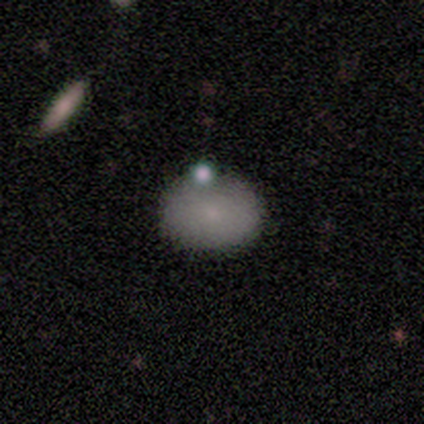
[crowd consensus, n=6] Q: Smooth or featured?
A: smooth (100%)
Q: How rounded?
A: in between (67%); runner-up: round (33%)
Q: Merging?
A: none (67%); runner-up: minor disturbance (17%)